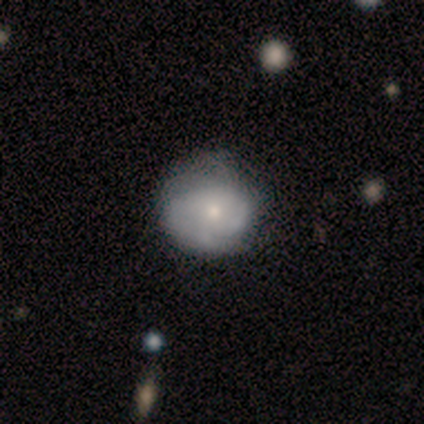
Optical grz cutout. It shows a featured or disk galaxy (60%) with no bar (100%), 4 (50%, tied with can't tell) tight (100%) spiral arms (67%) and a small central bulge (100%). Merging: none (60%).